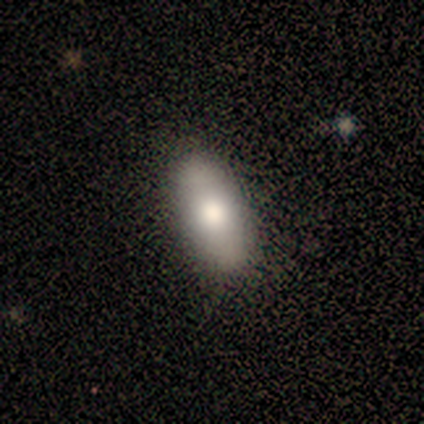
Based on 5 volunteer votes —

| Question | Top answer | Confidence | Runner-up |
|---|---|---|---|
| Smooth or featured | smooth | 40% | tied: star or artifact (40%) |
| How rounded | in between | 100% | — |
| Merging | none | 100% | — |